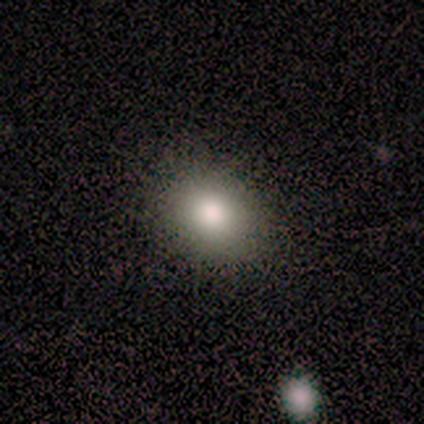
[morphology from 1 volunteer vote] Smooth or featured: smooth — 100%
How rounded: round — 100%
Merging: none — 100%